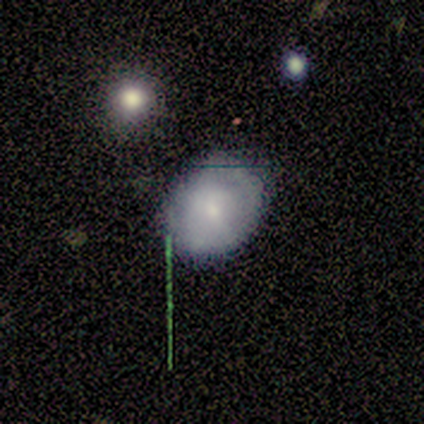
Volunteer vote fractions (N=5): Smooth or featured: smooth — 60% (featured or disk — 40%)
How rounded: in between — 67% (round — 33%)
Merging: none — 100%